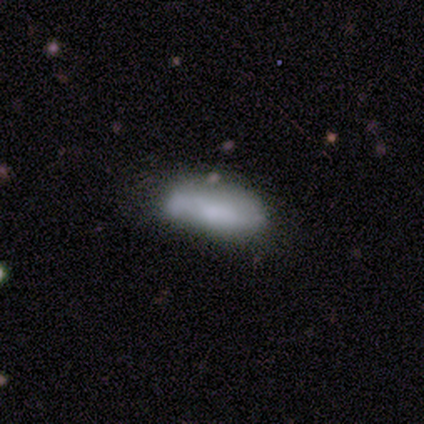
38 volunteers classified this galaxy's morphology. type=smooth (68%); roundness=in between (92%); merging=none (56%).